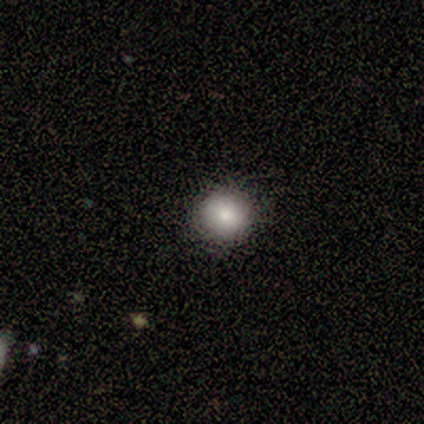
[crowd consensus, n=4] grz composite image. It shows a smooth galaxy with no disk features (50%, tied with featured or disk) that is round (100%). Merging: none (75%).